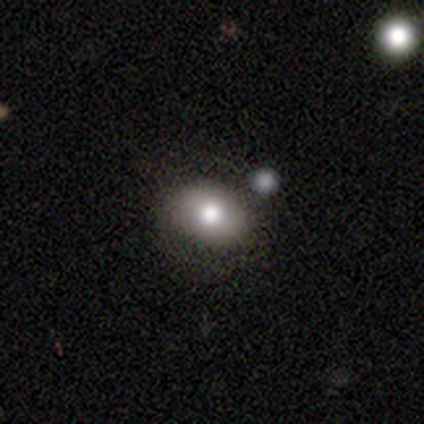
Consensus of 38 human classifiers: smooth_or_featured: smooth (p=0.76) [alt: featured or disk p=0.16]
how_rounded: in between (p=0.69) [alt: round p=0.31]
merging: none (p=0.71) [alt: minor disturbance p=0.20]